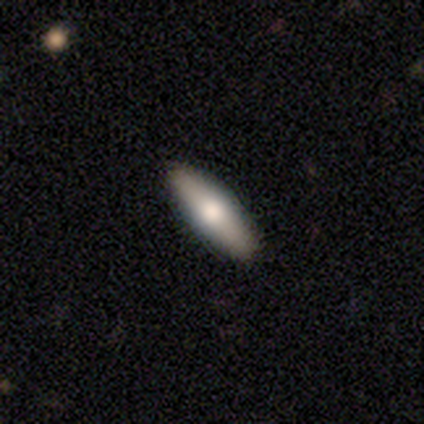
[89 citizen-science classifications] smooth_or_featured: smooth (p=0.66) [alt: featured or disk p=0.28]
how_rounded: cigar-shaped (p=0.66) [alt: in between p=0.34]
merging: none (p=0.93) [alt: minor disturbance p=0.05]